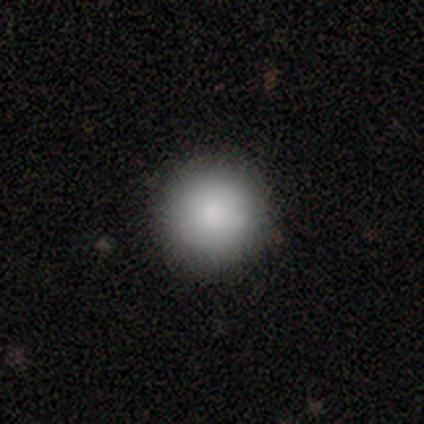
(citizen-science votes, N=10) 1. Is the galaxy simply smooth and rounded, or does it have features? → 80% smooth, 10% featured or disk, 10% star or artifact.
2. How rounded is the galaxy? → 100% round, 0% in between, 0% cigar-shaped.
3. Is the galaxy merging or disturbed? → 67% none, 33% minor disturbance, 0% major disturbance, 0% merger.